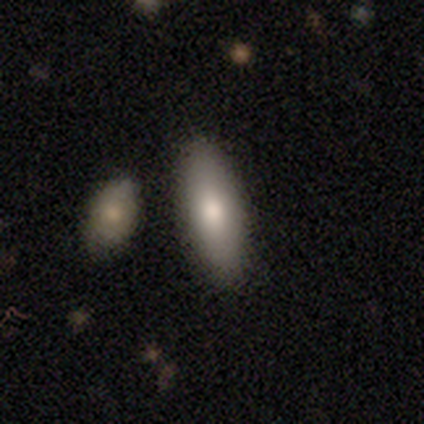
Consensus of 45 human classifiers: smooth_or_featured: smooth (p=0.89) [alt: featured or disk p=0.11]
how_rounded: in between (p=0.70) [alt: cigar-shaped p=0.30]
merging: none (p=0.73) [alt: minor disturbance p=0.13]